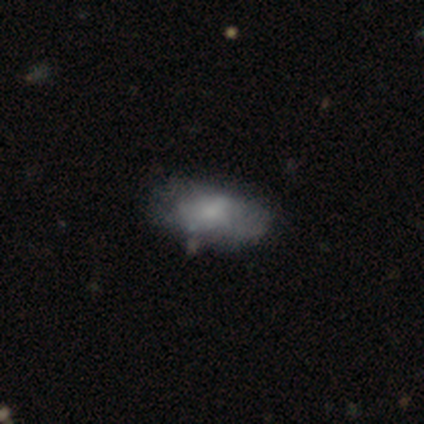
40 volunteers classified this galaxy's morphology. smooth 50%, featured or disk 45%, star or artifact 5%. Down the decision tree: how rounded — in between (90%); merging — none (50%).